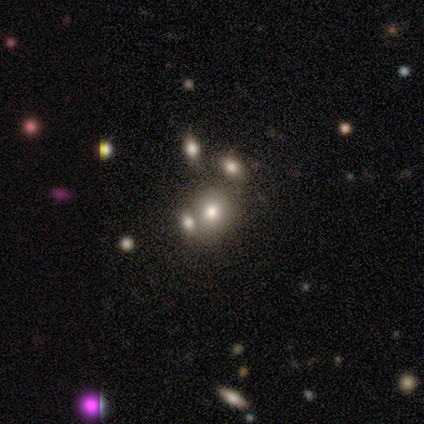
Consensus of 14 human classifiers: smooth_or_featured: smooth (p=0.57) [alt: star or artifact p=0.29]
how_rounded: round (p=1.00)
merging: merger (p=0.70) [alt: none p=0.30]